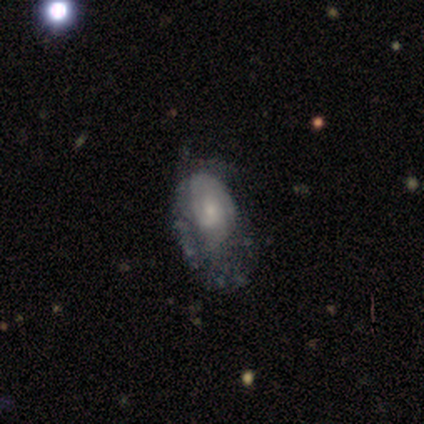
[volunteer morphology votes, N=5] featured or disk 60%, smooth 20%, star or artifact 20%. Down the decision tree: edge-on disk — no (100%); bar — weak (67%); spiral arms — yes (100%); spiral arm count — 1 (33%, tied with 3 and can't tell); spiral winding — tight (67%); bulge size — moderate (67%); merging — major disturbance (75%).